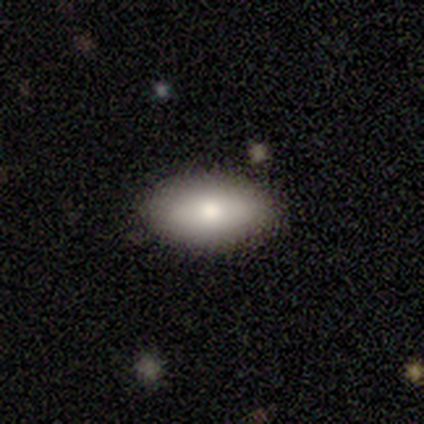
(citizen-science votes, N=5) Volunteers were most divided on "smooth or featured": smooth: 60%, featured or disk: 20%, star or artifact: 20%. More confident: how rounded — in between (100%); merging — none (100%).